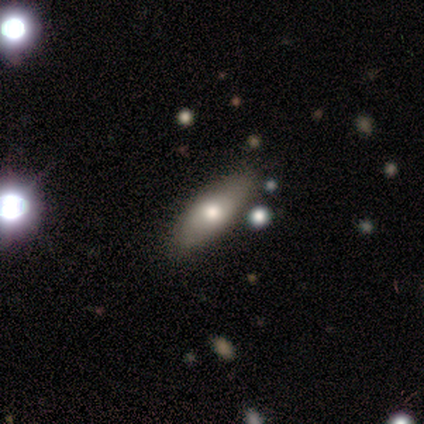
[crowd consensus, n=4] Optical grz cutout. It shows a smooth galaxy with no disk features (50%, tied with featured or disk) that is in between round and cigar-shaped (100%). Merging: none (100%).